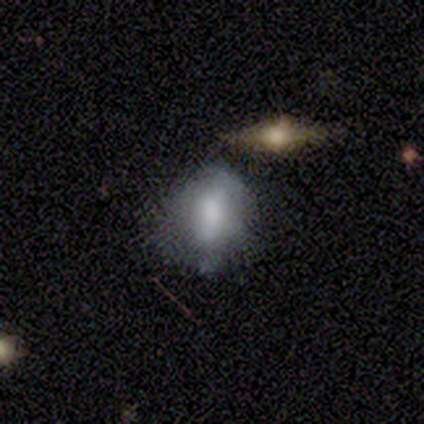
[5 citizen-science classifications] Morphology: type=smooth (60%); roundness=in between (100%); merging=none (50%).